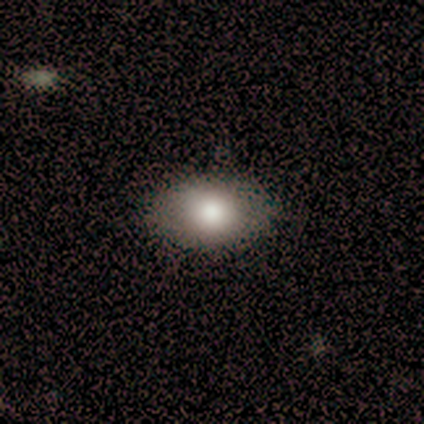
This is likely a smooth galaxy (74%). How rounded: likely in between (77%). Merging: likely none (76%).